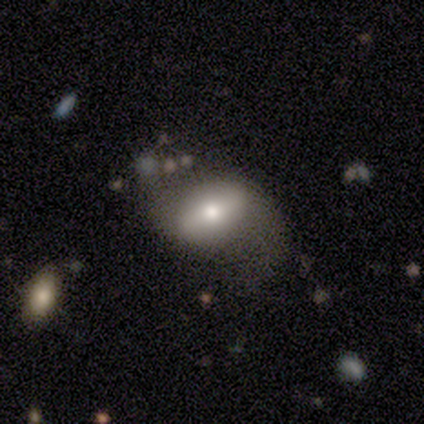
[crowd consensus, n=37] Smooth or featured? 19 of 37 (51%) said featured or disk. Edge-on disk? 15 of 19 (79%) said no. Bar? 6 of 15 (40%, tied with weak) said strong. Spiral arms? 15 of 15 (100%) said yes. Spiral winding? 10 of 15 (67%) said loose. Spiral arm count? 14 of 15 (93%) said 2. Bulge size? 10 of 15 (67%) said moderate. Merging? 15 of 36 (42%) said none.